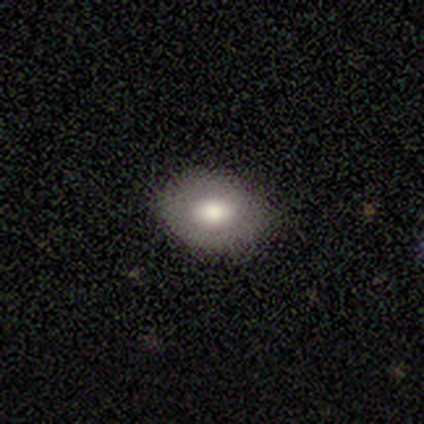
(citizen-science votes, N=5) Q: Smooth or featured?
A: featured or disk (60%); runner-up: smooth (40%)
Q: Edge-on disk?
A: no (100%)
Q: Bar?
A: no (100%)
Q: Spiral arms?
A: no (100%)
Q: Bulge size?
A: large (33%); tied with: moderate (33%); small (33%)
Q: Merging?
A: none (100%)